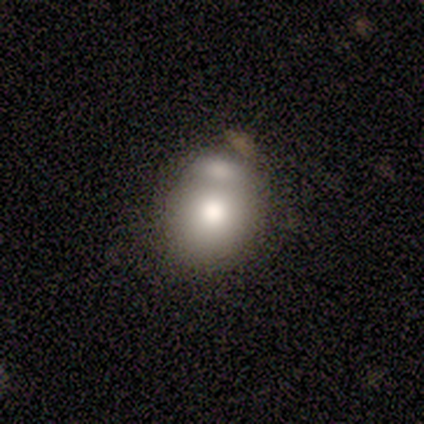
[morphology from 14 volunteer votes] type=smooth (93%); roundness=in between (54%); merging=none (46%).